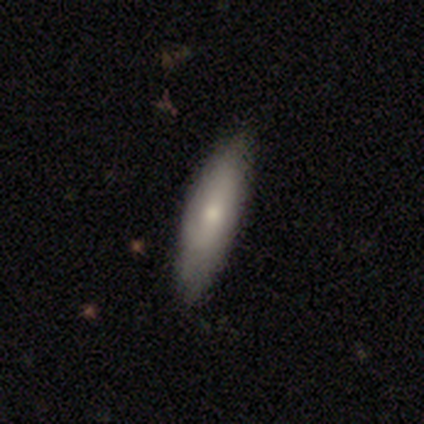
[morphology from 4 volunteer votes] This is possibly a smooth galaxy (50%, tied with featured or disk). How rounded: possibly in between (50%, tied with cigar-shaped). Merging: likely none (75%).